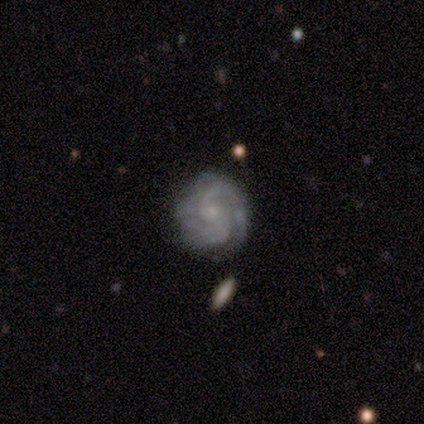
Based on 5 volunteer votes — featured or disk 100%, smooth 0%, star or artifact 0%. Down the decision tree: edge-on disk — no (100%); bar — weak (60%); spiral arms — yes (100%); spiral arm count — 2 (100%); spiral winding — tight (60%); bulge size — small (100%); merging — none (60%).